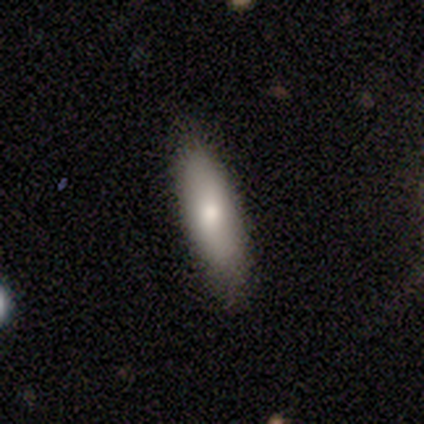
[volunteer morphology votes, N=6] A smooth galaxy with no disk features (83%) that is in between round and cigar-shaped (80%). Merging: none (83%).